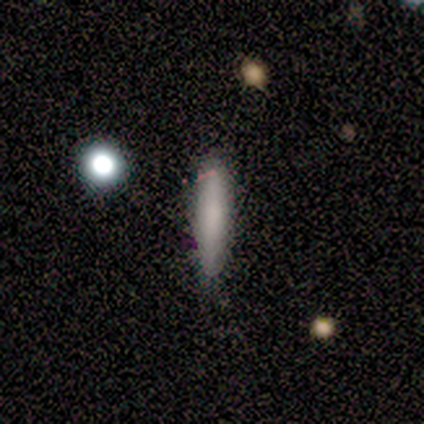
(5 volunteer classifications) Q: Smooth or featured?
A: smooth (80%); runner-up: featured or disk (20%)
Q: How rounded?
A: cigar-shaped (75%); runner-up: in between (25%)
Q: Merging?
A: none (80%); runner-up: minor disturbance (20%)